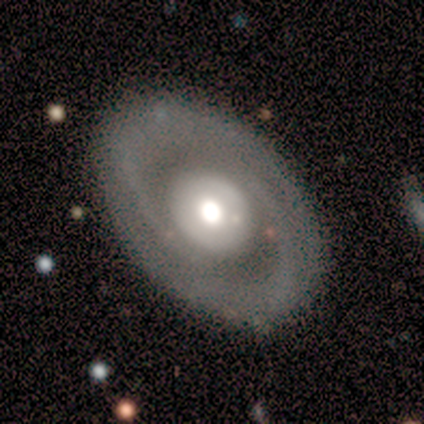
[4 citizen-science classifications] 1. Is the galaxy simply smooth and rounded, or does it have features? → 100% featured or disk, 0% smooth, 0% star or artifact.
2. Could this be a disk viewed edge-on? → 75% no, 25% yes.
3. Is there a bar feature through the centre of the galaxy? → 100% no, 0% strong, 0% weak.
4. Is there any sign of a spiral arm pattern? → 100% yes, 0% no.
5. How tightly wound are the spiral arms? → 67% medium, 33% loose, 0% tight.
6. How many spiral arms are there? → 100% 2, 0% 1, 0% 3, 0% 4, 0% more than 4, 0% can't tell.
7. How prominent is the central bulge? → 67% large, 33% moderate, 0% dominant, 0% small, 0% none.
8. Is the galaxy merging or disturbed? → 100% none, 0% minor disturbance, 0% major disturbance, 0% merger.